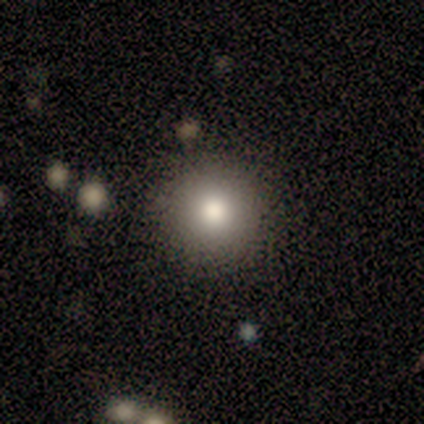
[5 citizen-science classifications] Smooth or featured?
  - smooth: 40% * (tied)
  - featured or disk: 40% * (tied)
  - star or artifact: 20%
How rounded?
  - round: 100% *
  - in between: 0%
  - cigar-shaped: 0%
Merging?
  - none: 100% *
  - minor disturbance: 0%
  - major disturbance: 0%
  - merger: 0%